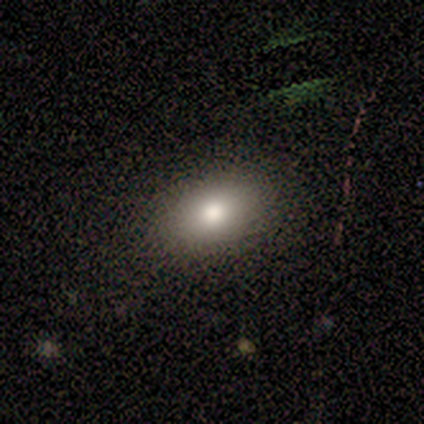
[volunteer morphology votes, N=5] Volunteers were most divided on "smooth or featured": smooth: 60%, star or artifact: 40%, featured or disk: 0%. More confident: how rounded — in between (100%); merging — none (100%).